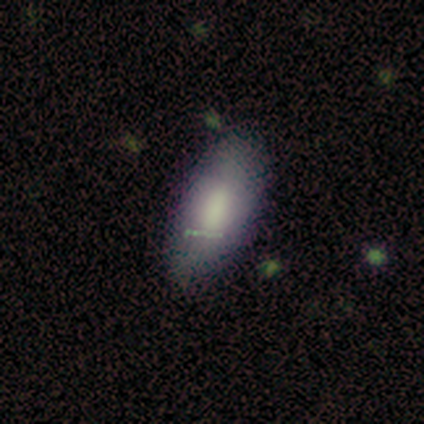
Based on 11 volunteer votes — Q: Smooth or featured?
A: smooth (64%); runner-up: featured or disk (18%)
Q: How rounded?
A: in between (71%); runner-up: cigar-shaped (29%)
Q: Merging?
A: none (78%); runner-up: minor disturbance (22%)